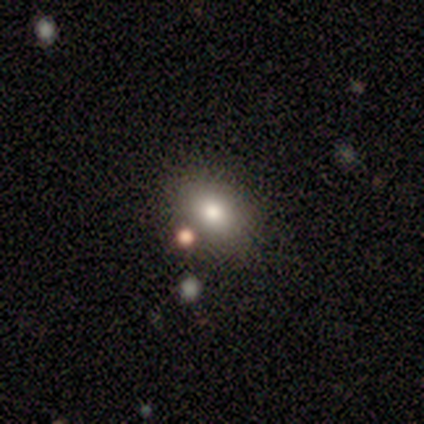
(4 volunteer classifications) Smooth or featured?
  - smooth: 50% *
  - featured or disk: 25%
  - star or artifact: 25%
How rounded?
  - round: 50% * (tied)
  - in between: 50% * (tied)
  - cigar-shaped: 0%
Merging?
  - minor disturbance: 67% *
  - none: 33%
  - major disturbance: 0%
  - merger: 0%